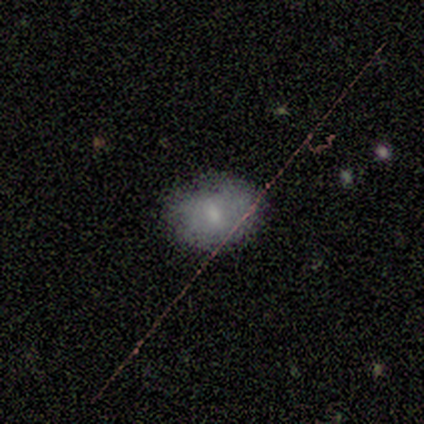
smooth 86%, star or artifact 14%, featured or disk 0%. Down the decision tree: how rounded — in between (67%); merging — none (67%).